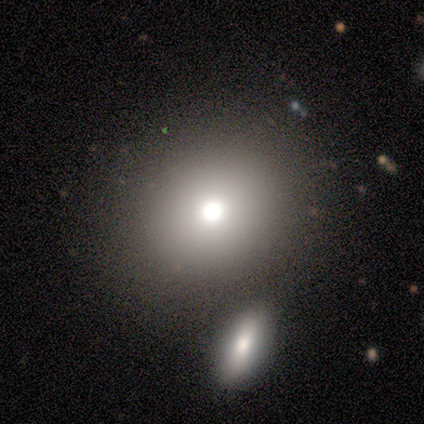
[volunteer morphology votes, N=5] Smooth or featured: smooth — 80% (featured or disk — 20%)
How rounded: round — 50% (tied with in between — 50%)
Merging: none — 80% (merger — 20%)